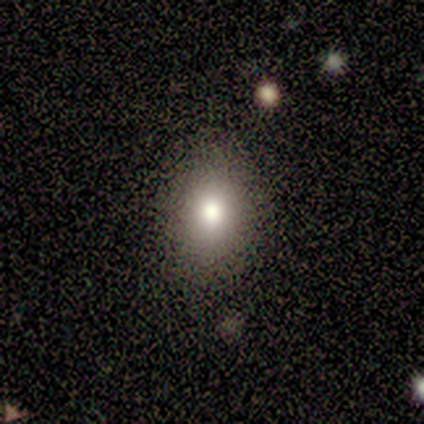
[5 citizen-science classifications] A smooth galaxy with no disk features (100%) that is in between round and cigar-shaped (80%).

Vote fractions:
- Smooth or featured? smooth: 100% / featured or disk: 0% / star or artifact: 0%
- How rounded? in between: 80% / round: 20% / cigar-shaped: 0%
- Merging? none: 80% / minor disturbance: 20% / major disturbance: 0% / merger: 0%